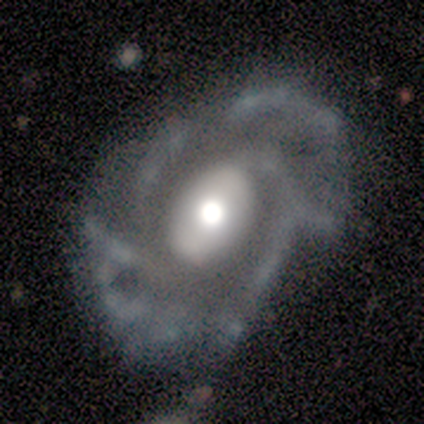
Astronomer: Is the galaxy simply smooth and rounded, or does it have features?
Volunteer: featured or disk — 100%.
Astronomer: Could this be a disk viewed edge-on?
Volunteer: no — 100%.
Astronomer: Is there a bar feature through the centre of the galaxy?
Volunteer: weak — 40%, tied with no at 40%.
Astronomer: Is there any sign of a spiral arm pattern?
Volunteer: yes — 80%.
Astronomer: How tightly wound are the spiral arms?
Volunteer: medium — 50%.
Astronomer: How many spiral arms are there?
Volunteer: can't tell — 75%.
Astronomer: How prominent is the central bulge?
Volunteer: large — 60% (runner-up: moderate, 40%).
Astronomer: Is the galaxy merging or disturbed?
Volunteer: minor disturbance — 40%, tied with major disturbance at 40%.